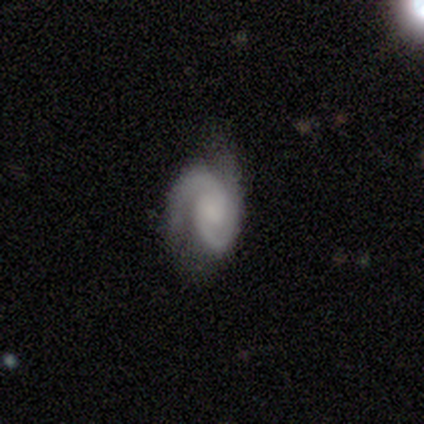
This is likely a featured or disk galaxy (78%). It is clearly not viewed edge-on (97%). Bar: likely no (60%). Spiral arm pattern: clearly yes (100%). Spiral arm count: clearly 2 (83%). Spiral winding: marginally tight (43%, tied with medium). Central bulge: marginally moderate (33%, tied with small). Merging: likely none (72%).